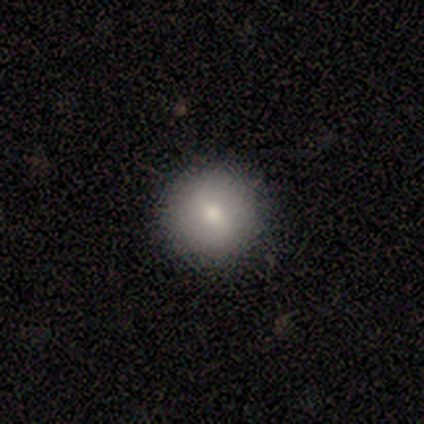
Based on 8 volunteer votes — Smooth or featured? smooth (88%)
How rounded? round (100%)
Merging? none (100%)